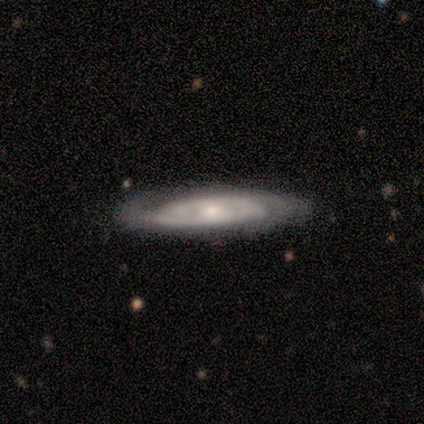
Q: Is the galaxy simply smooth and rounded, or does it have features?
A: featured or disk — 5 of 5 (100%).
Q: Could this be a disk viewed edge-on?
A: no — 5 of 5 (100%).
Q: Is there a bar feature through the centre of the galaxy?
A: no — 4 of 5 (80%).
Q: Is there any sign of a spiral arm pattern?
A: yes — 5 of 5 (100%).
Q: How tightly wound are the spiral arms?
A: tight — 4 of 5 (80%).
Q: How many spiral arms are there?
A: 2 — 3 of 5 (60%).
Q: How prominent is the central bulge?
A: small — 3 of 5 (60%).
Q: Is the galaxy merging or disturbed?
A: none — 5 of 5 (100%).